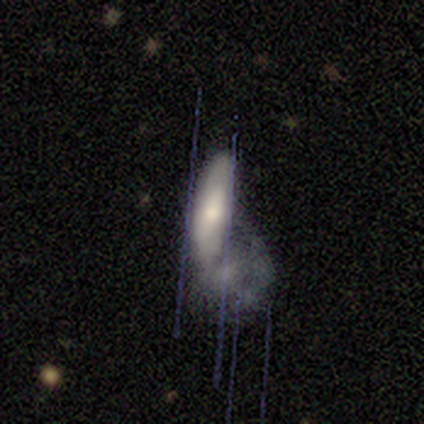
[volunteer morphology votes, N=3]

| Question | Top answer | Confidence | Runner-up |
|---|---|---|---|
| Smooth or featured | smooth | 67% | featured or disk (33%) |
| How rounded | in between | 100% | — |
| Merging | major disturbance | 67% | none (33%) |